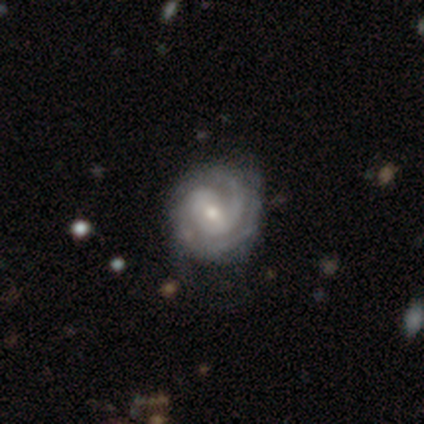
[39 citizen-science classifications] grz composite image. It shows a featured or disk galaxy (92%) with a weak bar (49%), 2 (51%) tight (77%) spiral arms (100%) and a moderate central bulge (51%). Merging: none (47%).